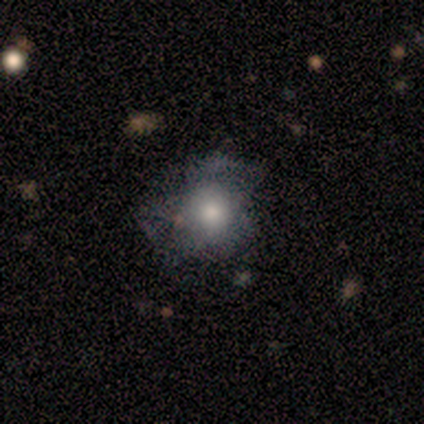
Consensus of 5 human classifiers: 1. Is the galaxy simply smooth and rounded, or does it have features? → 40% smooth (tied), 40% star or artifact (tied), 20% featured or disk.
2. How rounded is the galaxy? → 100% in between, 0% round, 0% cigar-shaped.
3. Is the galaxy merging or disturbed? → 67% minor disturbance, 33% none, 0% major disturbance, 0% merger.